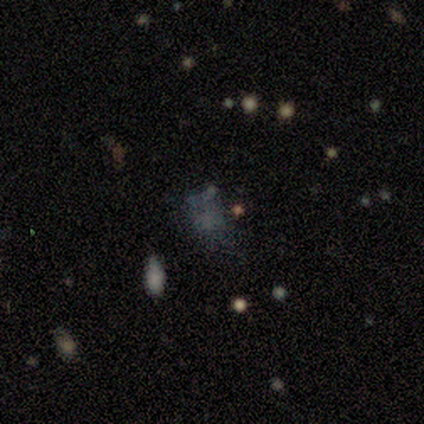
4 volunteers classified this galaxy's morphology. Smooth or featured?
  - smooth: 50% *
  - featured or disk: 25%
  - star or artifact: 25%
How rounded?
  - round: 50% * (tied)
  - in between: 50% * (tied)
  - cigar-shaped: 0%
Merging?
  - none: 67% *
  - minor disturbance: 33%
  - major disturbance: 0%
  - merger: 0%